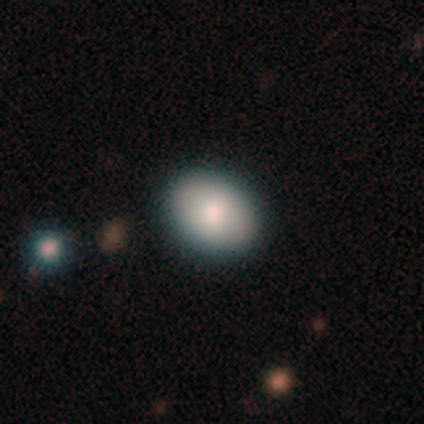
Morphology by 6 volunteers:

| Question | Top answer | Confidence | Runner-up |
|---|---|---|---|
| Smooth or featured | smooth | 83% | featured or disk (17%) |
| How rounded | round | 60% | in between (40%) |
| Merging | none | 67% | minor disturbance (17%) |